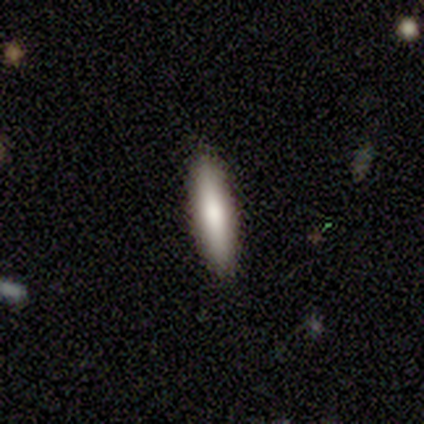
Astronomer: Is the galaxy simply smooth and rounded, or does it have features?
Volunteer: smooth — 67%.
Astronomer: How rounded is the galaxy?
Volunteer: cigar-shaped — 100%.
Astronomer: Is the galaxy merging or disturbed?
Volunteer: none — 100%.